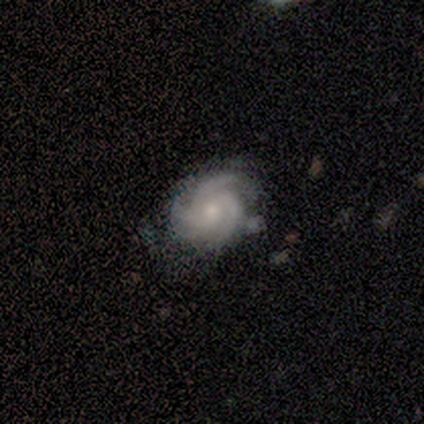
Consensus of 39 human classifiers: smooth-or-featured: featured or disk: 90% | smooth: 5% | star or artifact: 5%
  disk-edge-on: no: 100% | yes: 0%
    bar: no: 86% | weak: 14% | strong: 0%
    has-spiral-arms: yes: 100% | no: 0%
      spiral-winding: tight: 57% | medium: 31% | loose: 11%
      spiral-arm-count: 3: 66% | 4: 17% | can't tell: 14% | 2: 3% | 1: 0% | more than 4: 0%
    bulge-size: small: 57% | moderate: 40% | none: 3% | dominant: 0% | large: 0%
  merging: none: 65% | minor disturbance: 22% | merger: 8% | major disturbance: 5%